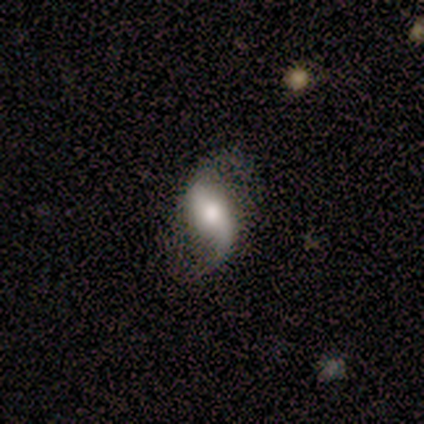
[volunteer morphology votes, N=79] featured or disk 84%, star or artifact 9%, smooth 8%. Down the decision tree: edge-on disk — no (97%); bar — strong (42%, tied with no); spiral arms — yes (97%); spiral arm count — 2 (85%); spiral winding — loose (84%); bulge size — moderate (50%); merging — none (68%).